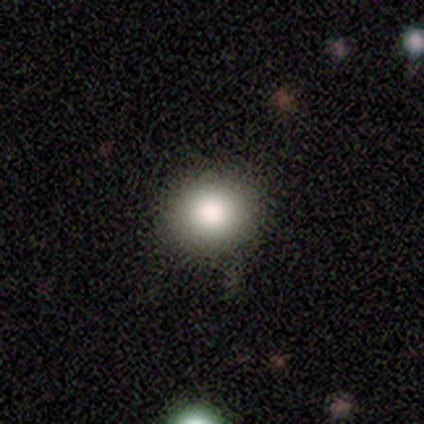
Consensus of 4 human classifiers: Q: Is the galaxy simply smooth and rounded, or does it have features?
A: smooth — 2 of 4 (50%, tied with featured or disk).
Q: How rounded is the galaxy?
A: round — 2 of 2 (100%).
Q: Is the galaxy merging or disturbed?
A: none — 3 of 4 (75%).